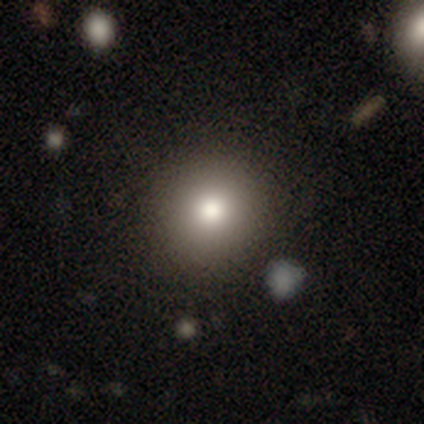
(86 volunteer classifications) A smooth galaxy with no disk features (69%) that is round (85%). Merging: none (92%).